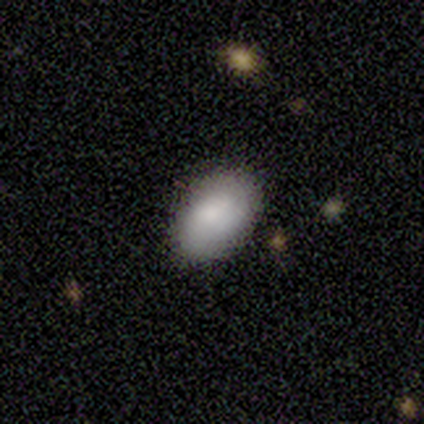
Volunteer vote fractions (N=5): Smooth or featured? smooth (80%)
How rounded? in between (100%)
Merging? none (80%)